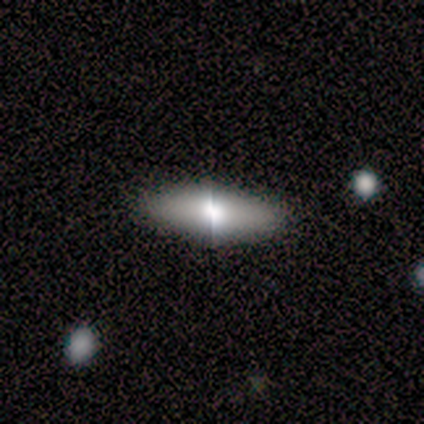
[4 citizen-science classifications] Q: Smooth or featured?
A: smooth (50%); runner-up: featured or disk (25%)
Q: How rounded?
A: cigar-shaped (100%)
Q: Merging?
A: none (100%)